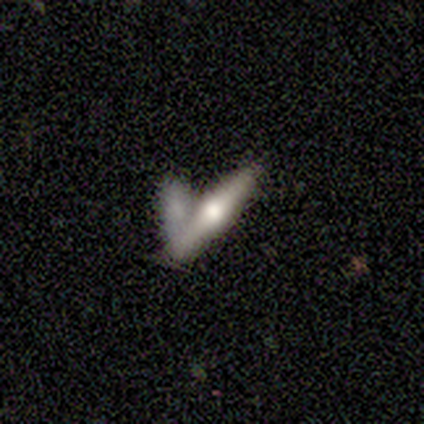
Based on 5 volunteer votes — Morphology: type=smooth (80%); roundness=cigar-shaped (100%); merging=merger (80%).